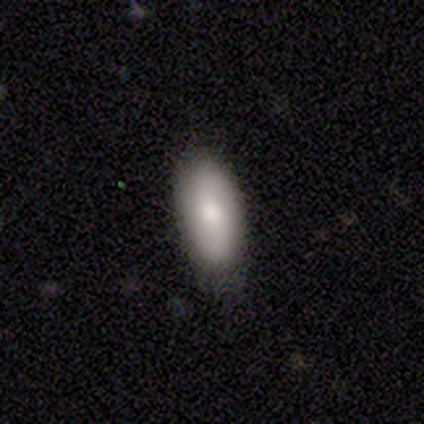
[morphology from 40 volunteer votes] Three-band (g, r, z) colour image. It shows a smooth galaxy with no disk features (75%) that is in between round and cigar-shaped (83%). Merging: none (77%).